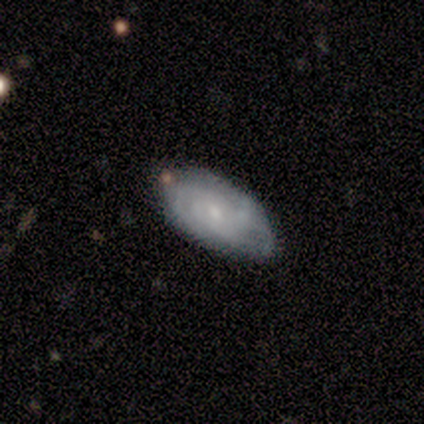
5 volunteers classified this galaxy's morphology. type=featured or disk (80%); edge-on=no (100%); bar=no (75%); spiral arms=yes (100%); winding=tight (50%); arm count=2 (75%); bulge=small (75%); merging=minor disturbance (60%).